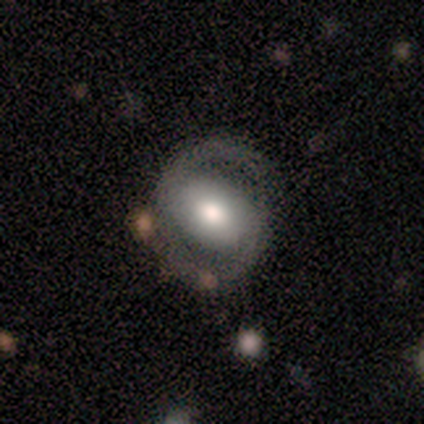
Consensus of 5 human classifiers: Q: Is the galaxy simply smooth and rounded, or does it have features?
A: featured or disk — 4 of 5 (80%).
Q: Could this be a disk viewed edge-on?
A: no — 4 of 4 (100%).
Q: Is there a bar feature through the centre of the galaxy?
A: no — 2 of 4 (50%).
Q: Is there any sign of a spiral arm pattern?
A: yes — 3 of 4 (75%).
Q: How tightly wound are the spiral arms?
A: medium — 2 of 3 (67%).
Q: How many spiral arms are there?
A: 2 — 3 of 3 (100%).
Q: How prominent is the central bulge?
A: large — 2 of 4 (50%).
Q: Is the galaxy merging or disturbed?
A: none — 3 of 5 (60%).